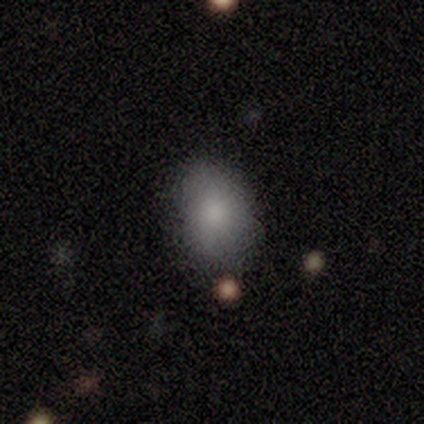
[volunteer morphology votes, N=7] smooth 57%, star or artifact 29%, featured or disk 14%. Down the decision tree: how rounded — in between (75%); merging — none (80%).